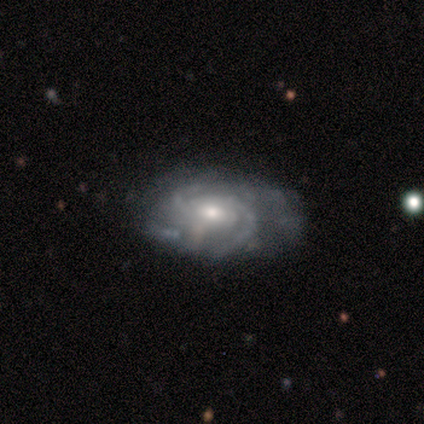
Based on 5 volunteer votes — Q: Smooth or featured?
A: featured or disk (100%)
Q: Edge-on disk?
A: no (100%)
Q: Bar?
A: no (60%); runner-up: weak (40%)
Q: Spiral arms?
A: yes (100%)
Q: Spiral winding?
A: tight (60%); runner-up: medium (20%)
Q: Spiral arm count?
A: 2 (40%); runner-up: 3 (20%)
Q: Bulge size?
A: moderate (60%); runner-up: small (40%)
Q: Merging?
A: none (60%); runner-up: minor disturbance (40%)